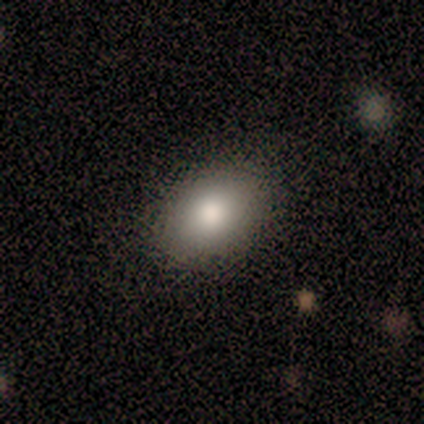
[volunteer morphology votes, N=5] smooth-or-featured: smooth: 80% | featured or disk: 20% | star or artifact: 0%
  how-rounded: in between: 75% | round: 25% | cigar-shaped: 0%
  merging: none: 100% | minor disturbance: 0% | major disturbance: 0% | merger: 0%